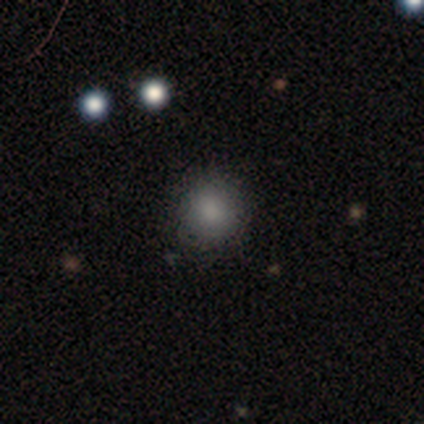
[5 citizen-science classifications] Smooth or featured? 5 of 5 (100%) said smooth. How rounded? 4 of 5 (80%) said round. Merging? 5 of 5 (100%) said none.